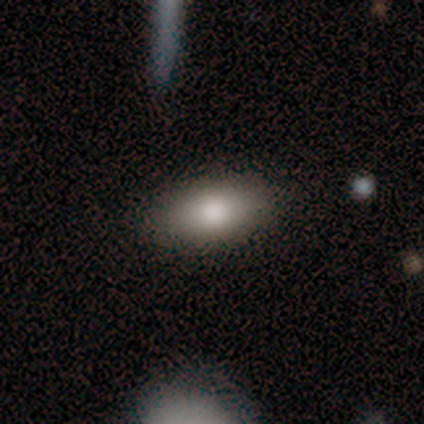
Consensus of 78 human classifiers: A smooth galaxy with no disk features (86%) that is in between round and cigar-shaped (87%). Merging: none (47%).